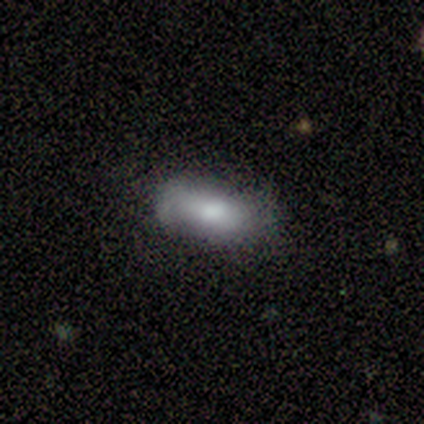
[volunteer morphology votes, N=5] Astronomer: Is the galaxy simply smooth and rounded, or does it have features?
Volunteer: smooth — 100%.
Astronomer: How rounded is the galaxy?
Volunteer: in between — 80%.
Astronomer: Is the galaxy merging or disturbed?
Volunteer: none — 40%, tied with major disturbance at 40%.